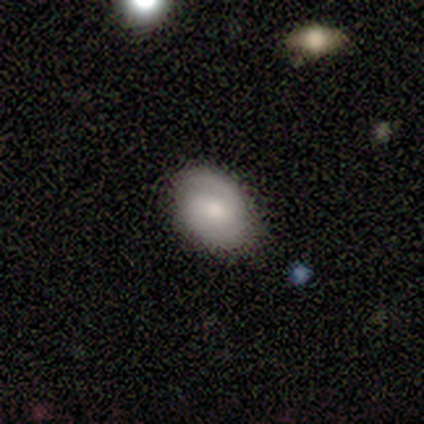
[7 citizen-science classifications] smooth_or_featured: smooth (p=0.71) [alt: featured or disk p=0.29]
how_rounded: in between (p=0.60) [alt: round p=0.40]
merging: none (p=0.86) [alt: minor disturbance p=0.14]